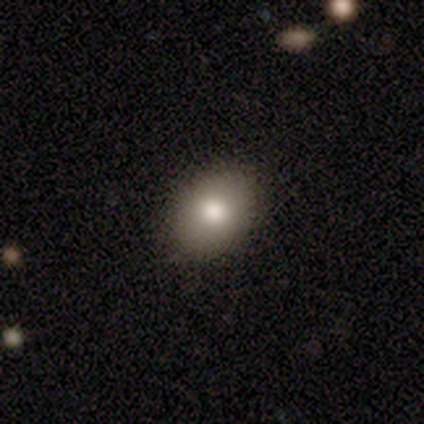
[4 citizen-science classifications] Overall: smooth (50%; featured or disk 25%). How rounded: in between (100%). Merging: none (67%; minor disturbance 33%).